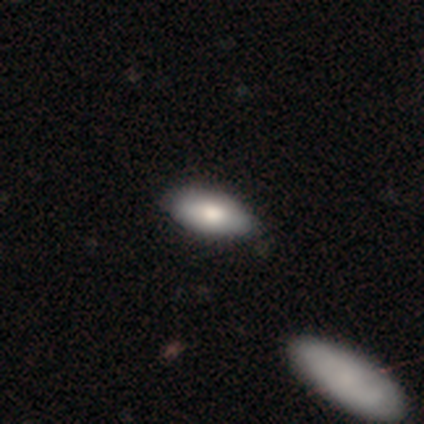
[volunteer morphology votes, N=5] Smooth or featured? smooth (100%)
How rounded? in between (100%)
Merging? none (80%)